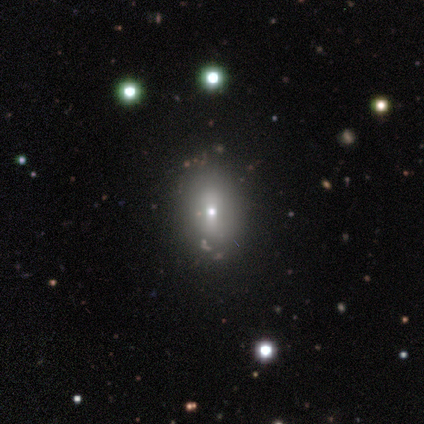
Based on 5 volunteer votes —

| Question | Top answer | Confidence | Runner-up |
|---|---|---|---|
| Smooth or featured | smooth | 100% | — |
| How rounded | in between | 100% | — |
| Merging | none | 100% | — |